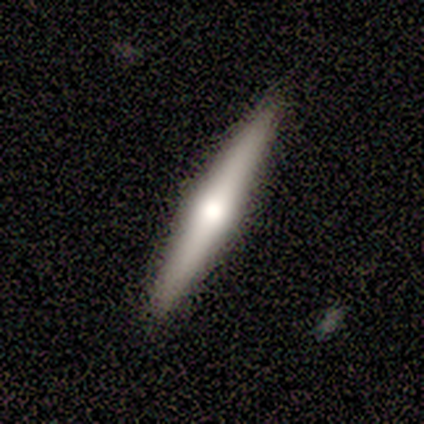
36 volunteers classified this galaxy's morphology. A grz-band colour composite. It shows a featured or disk galaxy (58%) viewed edge-on (100%) with a rounded central bulge (86%). Merging: none (91%).